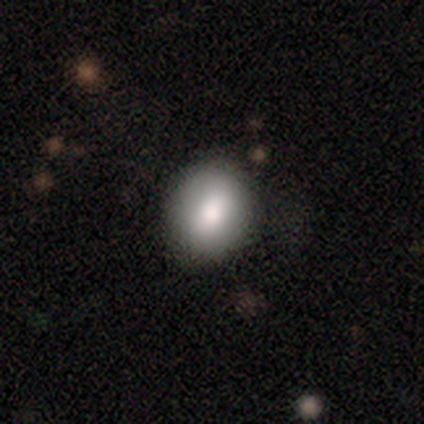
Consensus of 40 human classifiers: Smooth or featured? 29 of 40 (72%) said smooth. How rounded? 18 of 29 (62%) said in between. Merging? 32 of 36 (89%) said none.